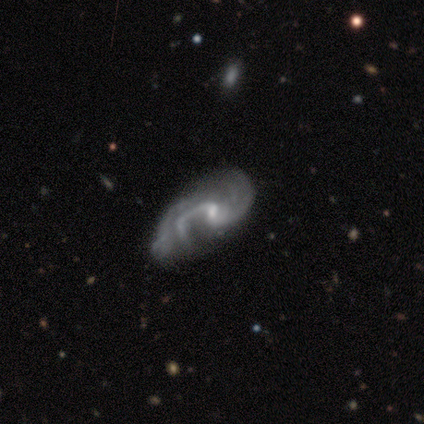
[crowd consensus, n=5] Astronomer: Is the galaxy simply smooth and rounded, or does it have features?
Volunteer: featured or disk — 100%.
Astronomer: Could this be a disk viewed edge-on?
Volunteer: no — 80%.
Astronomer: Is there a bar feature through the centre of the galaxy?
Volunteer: weak — 50%, tied with no at 50%.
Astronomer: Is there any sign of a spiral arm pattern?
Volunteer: yes — 100%.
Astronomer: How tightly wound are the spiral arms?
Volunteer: medium — 100%.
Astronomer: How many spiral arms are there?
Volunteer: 2 — 75%.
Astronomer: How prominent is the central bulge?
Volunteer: small — 75%.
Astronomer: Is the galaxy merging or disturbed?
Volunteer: none — 40% (runner-up: minor disturbance, 20%).